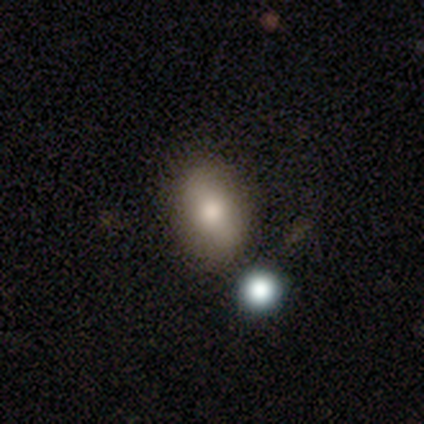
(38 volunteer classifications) Smooth or featured? 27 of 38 (71%) said smooth. How rounded? 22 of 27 (81%) said in between. Merging? 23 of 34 (68%) said none.